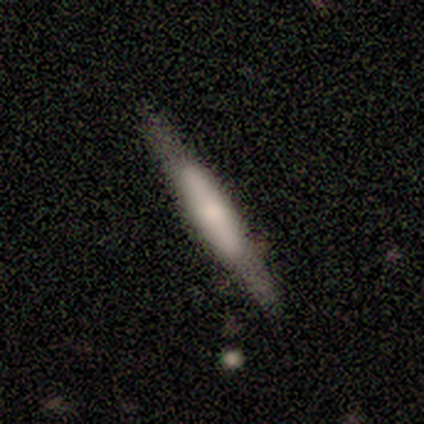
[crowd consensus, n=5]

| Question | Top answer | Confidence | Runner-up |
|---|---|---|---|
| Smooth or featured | featured or disk | 80% | smooth (20%) |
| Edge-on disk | yes | 100% | — |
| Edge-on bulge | boxy | 50% | none (25%) |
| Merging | none | 100% | — |